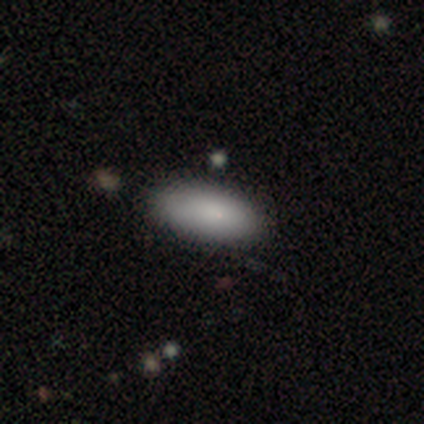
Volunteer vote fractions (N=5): A smooth galaxy with no disk features (80%) that is in between round and cigar-shaped (75%).

Vote fractions:
- Smooth or featured? smooth: 80% / star or artifact: 20% / featured or disk: 0%
- How rounded? in between: 75% / cigar-shaped: 25% / round: 0%
- Merging? none: 100% / minor disturbance: 0% / major disturbance: 0% / merger: 0%